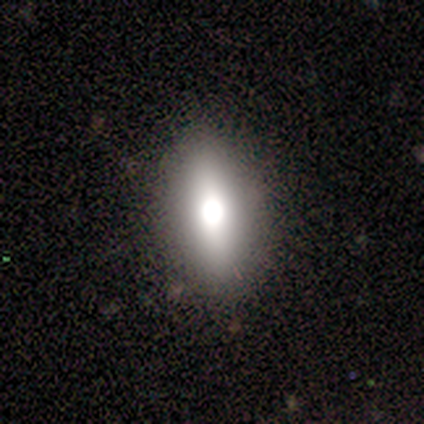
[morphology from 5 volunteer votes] Q: Smooth or featured?
A: smooth (60%); runner-up: featured or disk (40%)
Q: How rounded?
A: in between (100%)
Q: Merging?
A: none (60%); runner-up: minor disturbance (20%)